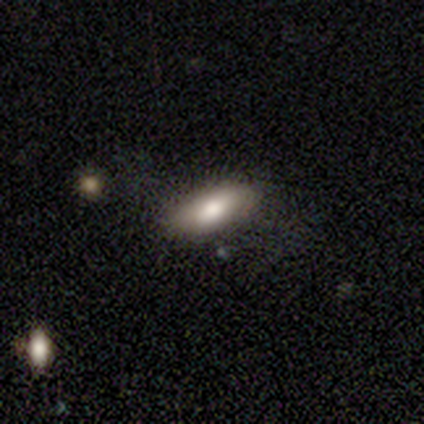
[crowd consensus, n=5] Smooth or featured: smooth — 80% (featured or disk — 20%)
How rounded: in between — 75% (cigar-shaped — 25%)
Merging: none — 100%